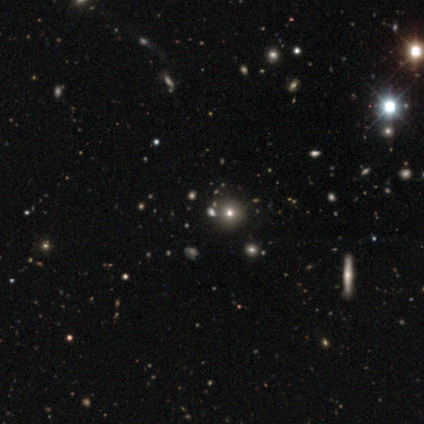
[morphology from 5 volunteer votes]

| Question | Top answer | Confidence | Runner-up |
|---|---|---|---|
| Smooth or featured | smooth | 60% | featured or disk (20%) |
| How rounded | round | 100% | — |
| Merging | none | 100% | — |